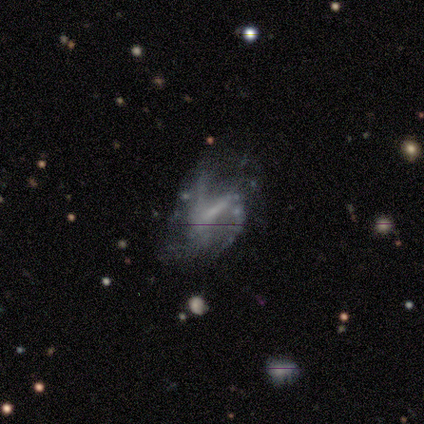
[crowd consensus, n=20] smooth_or_featured: featured or disk (p=0.90) [alt: smooth p=0.10]
disk_edge_on: no (p=1.00)
bar: weak (p=0.72) [alt: strong p=0.22]
has_spiral_arms: yes (p=0.83) [alt: no p=0.17]
spiral_winding: medium (p=0.60) [alt: loose p=0.40]
spiral_arm_count: can't tell (p=0.33) [alt: 2 p=0.27]
bulge_size: none (p=0.39) [alt: small p=0.33]
merging: none (p=0.35) [tied with: major disturbance p=0.35]